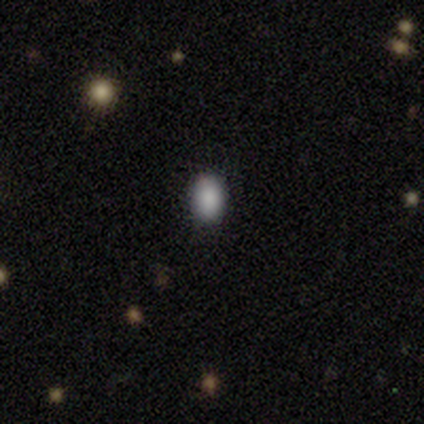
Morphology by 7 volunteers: smooth-or-featured: smooth: 100% | featured or disk: 0% | star or artifact: 0%
  how-rounded: in between: 86% | round: 14% | cigar-shaped: 0%
  merging: none: 100% | minor disturbance: 0% | major disturbance: 0% | merger: 0%